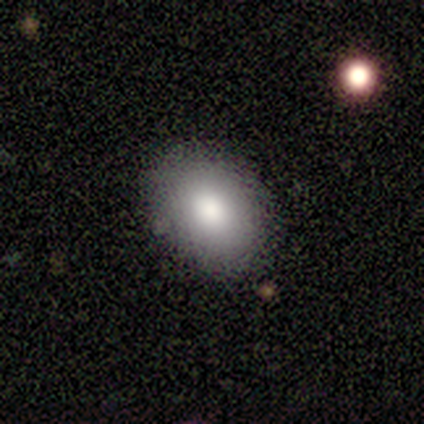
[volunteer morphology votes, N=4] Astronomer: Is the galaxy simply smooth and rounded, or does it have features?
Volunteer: smooth — 100%.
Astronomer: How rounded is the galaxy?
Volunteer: in between — 75%.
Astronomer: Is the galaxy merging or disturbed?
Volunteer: none — 100%.